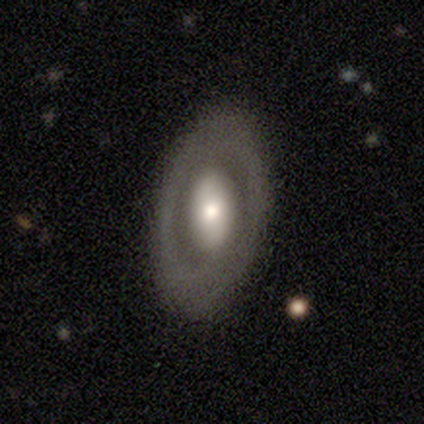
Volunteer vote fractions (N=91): This appears to be a featured or disk galaxy (62%) with no bar (56%), no spiral arms (79%) and a moderate central bulge (46%). Merging: none (80%).